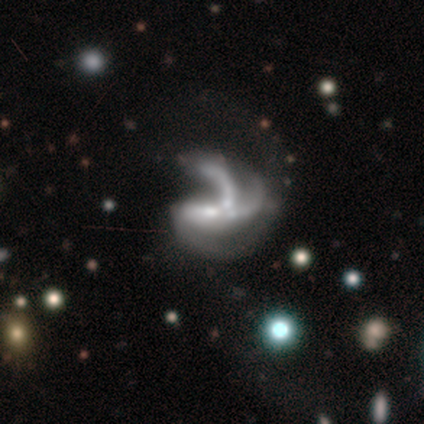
This appears to be a featured or disk galaxy (100%) with no bar (80%), 3 (80%) loose (100%) spiral arms (100%) and a small central bulge (80%). Merging: major disturbance (40%, tied with merger).